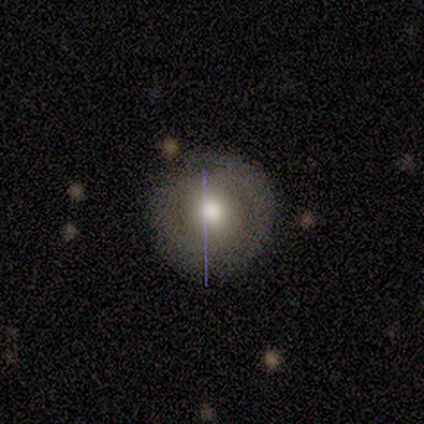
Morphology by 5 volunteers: smooth 60%, featured or disk 40%, star or artifact 0%. Down the decision tree: how rounded — round (100%); merging — none (60%).